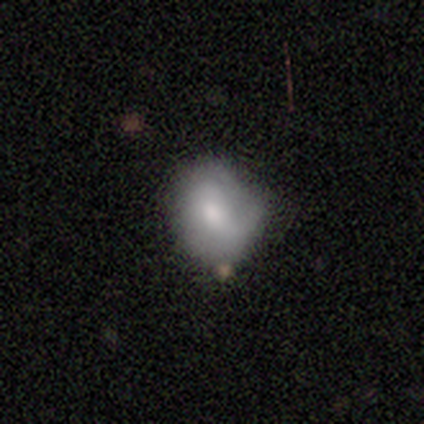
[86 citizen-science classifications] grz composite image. It shows a smooth galaxy with no disk features (64%) that is in between round and cigar-shaped (55%). Merging: minor disturbance (51%).